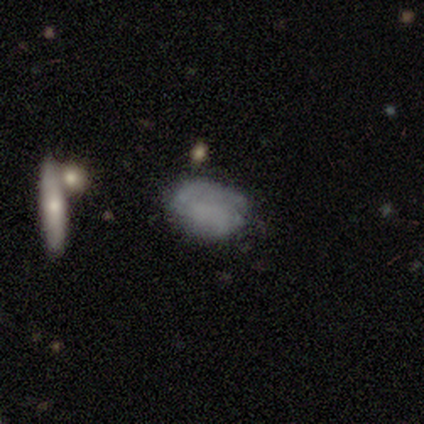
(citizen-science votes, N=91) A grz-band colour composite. It shows a smooth galaxy with no disk features (65%) that is in between round and cigar-shaped (81%). Merging: none (68%).